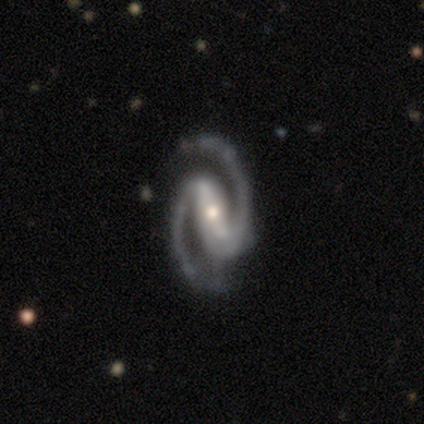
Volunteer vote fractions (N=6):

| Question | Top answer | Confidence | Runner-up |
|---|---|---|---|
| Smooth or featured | featured or disk | 100% | — |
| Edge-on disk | no | 100% | — |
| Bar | strong | 67% | weak (33%) |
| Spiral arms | yes | 100% | — |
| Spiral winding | medium | 50% | tight (33%) |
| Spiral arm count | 2 | 100% | — |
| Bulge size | moderate | 50% | tied: small (50%) |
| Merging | none | 67% | minor disturbance (33%) |